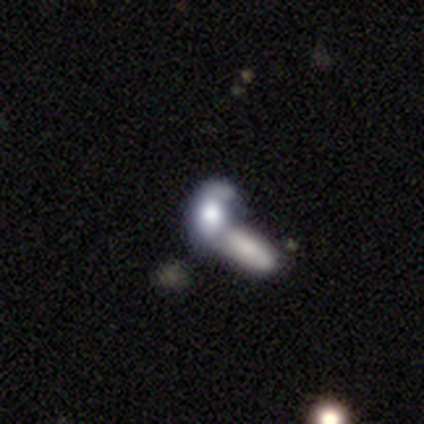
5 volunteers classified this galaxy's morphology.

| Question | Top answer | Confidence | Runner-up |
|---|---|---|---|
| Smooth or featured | smooth | 60% | featured or disk (20%) |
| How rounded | in between | 67% | round (33%) |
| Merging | merger | 100% | — |